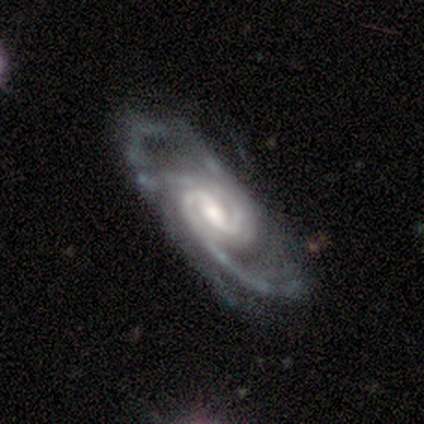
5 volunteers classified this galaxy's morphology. Smooth or featured: featured or disk — 100%
Edge-on disk: no — 60% (yes — 40%)
Bar: weak — 67% (no — 33%)
Spiral arms: yes — 100%
Spiral winding: tight — 67% (medium — 33%)
Spiral arm count: 2 — 67% (3 — 33%)
Bulge size: moderate — 100%
Merging: none — 60% (minor disturbance — 40%)